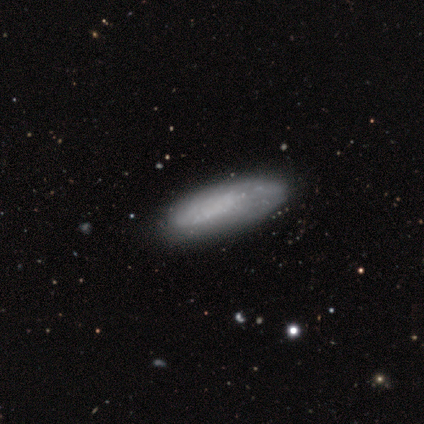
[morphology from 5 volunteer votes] This is likely a smooth galaxy (60%). How rounded: clearly in between (100%). Merging: marginally none (40%, tied with major disturbance).